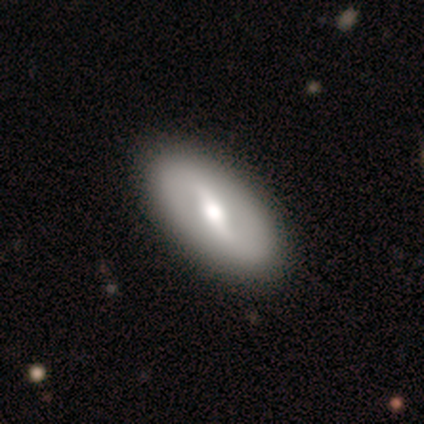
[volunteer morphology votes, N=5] featured or disk 60%, smooth 40%, star or artifact 0%. Down the decision tree: edge-on disk — no (100%); bar — strong (67%); spiral arms — no (100%); bulge size — moderate (100%); merging — none (100%).